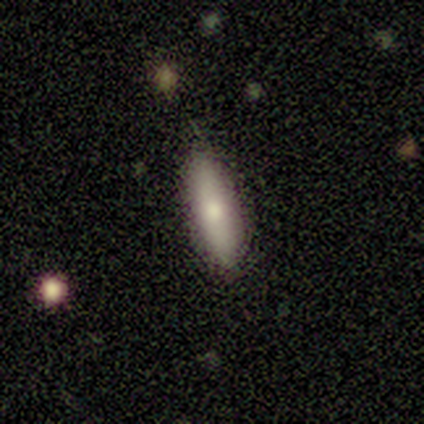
Smooth or featured?
  - smooth: 62% *
  - featured or disk: 26%
  - star or artifact: 13%
How rounded?
  - cigar-shaped: 62% *
  - in between: 33%
  - round: 4%
Merging?
  - none: 68% *
  - minor disturbance: 26%
  - major disturbance: 3%
  - merger: 3%